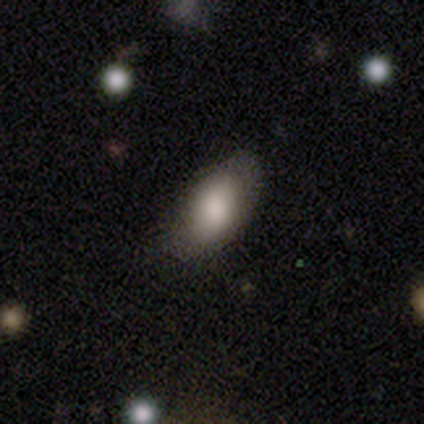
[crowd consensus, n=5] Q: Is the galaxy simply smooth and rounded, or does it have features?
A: smooth — 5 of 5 (100%).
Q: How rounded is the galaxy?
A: in between — 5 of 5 (100%).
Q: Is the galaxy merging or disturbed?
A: minor disturbance — 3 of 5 (60%).